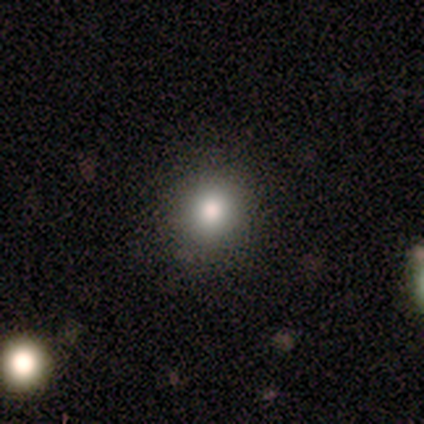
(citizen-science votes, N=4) This appears to be a smooth galaxy with no disk features (50%) that is round (100%). Merging: none (100%).